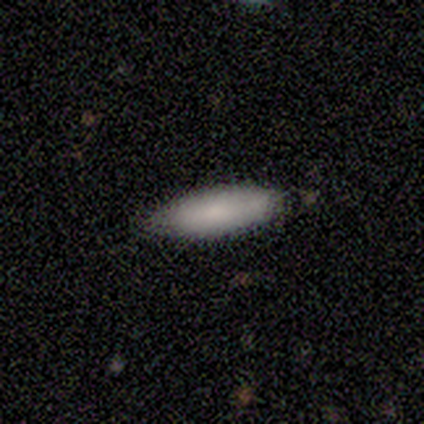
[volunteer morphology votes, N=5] Smooth or featured? smooth (80%)
How rounded? cigar-shaped (100%)
Merging? none (80%)